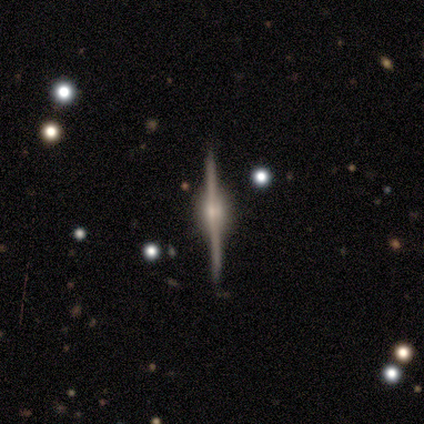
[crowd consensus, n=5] A featured or disk galaxy (100%) viewed edge-on (100%) with a rounded central bulge (100%).

Vote fractions:
- Smooth or featured? featured or disk: 100% / smooth: 0% / star or artifact: 0%
- Edge-on disk? yes: 100% / no: 0%
- Edge-on bulge? rounded: 100% / boxy: 0% / none: 0%
- Merging? none: 100% / minor disturbance: 0% / major disturbance: 0% / merger: 0%